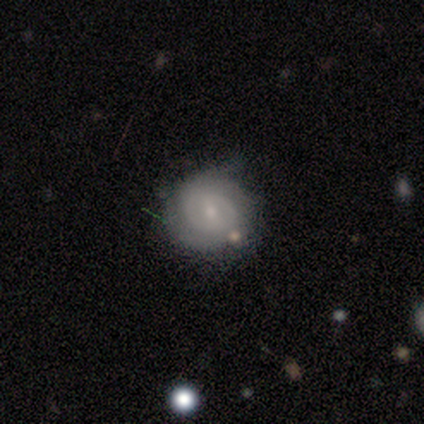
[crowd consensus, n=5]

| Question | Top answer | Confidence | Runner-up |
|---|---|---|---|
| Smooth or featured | featured or disk | 80% | smooth (20%) |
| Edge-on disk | no | 100% | — |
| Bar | no | 75% | strong (25%) |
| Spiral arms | yes | 100% | — |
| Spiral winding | tight | 75% | medium (25%) |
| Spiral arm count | can't tell | 50% | 2 (25%) |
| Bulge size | small | 75% | moderate (25%) |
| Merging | none | 100% | — |